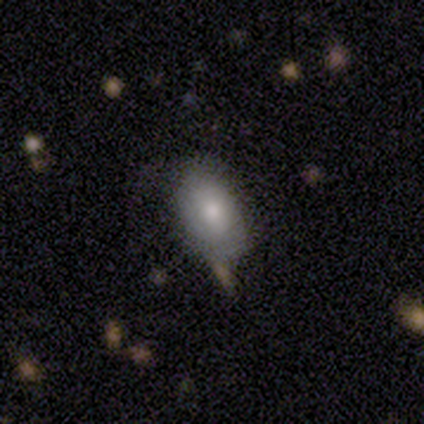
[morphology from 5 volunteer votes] Q: Smooth or featured?
A: smooth (80%); runner-up: featured or disk (20%)
Q: How rounded?
A: in between (75%); runner-up: round (25%)
Q: Merging?
A: none (100%)